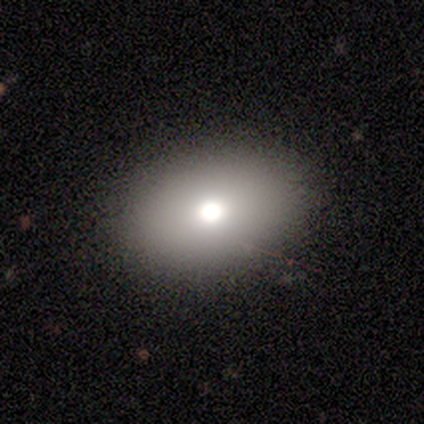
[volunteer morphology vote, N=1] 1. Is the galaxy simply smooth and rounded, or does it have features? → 100% smooth, 0% featured or disk, 0% star or artifact.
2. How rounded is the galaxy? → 100% in between, 0% round, 0% cigar-shaped.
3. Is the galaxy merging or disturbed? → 100% none, 0% minor disturbance, 0% major disturbance, 0% merger.